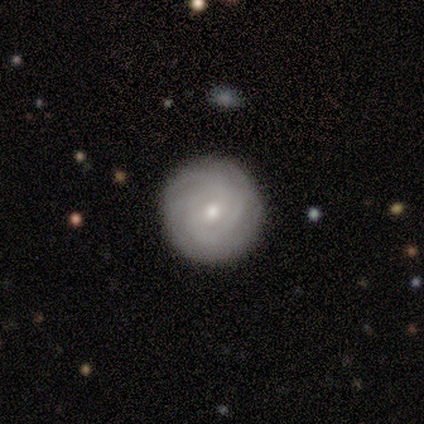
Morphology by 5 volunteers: type=featured or disk (80%); edge-on=no (100%); bar=weak (75%); spiral arms=yes (100%); winding=tight (50%, tied with medium); arm count=3 (50%, tied with can't tell); bulge=small (75%); merging=none (100%).